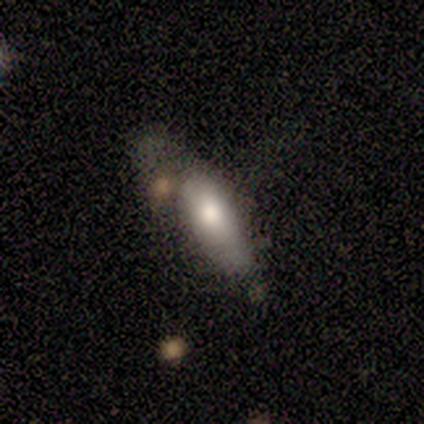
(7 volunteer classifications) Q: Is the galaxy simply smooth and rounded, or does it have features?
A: smooth — 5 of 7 (71%).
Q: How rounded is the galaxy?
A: in between — 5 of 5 (100%).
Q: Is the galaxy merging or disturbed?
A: none — 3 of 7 (43%, tied with minor disturbance).